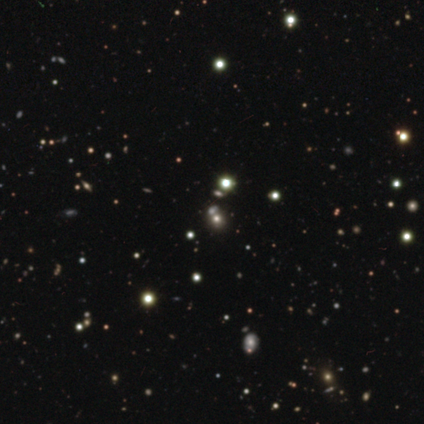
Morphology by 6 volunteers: Overall: star or artifact (83%).